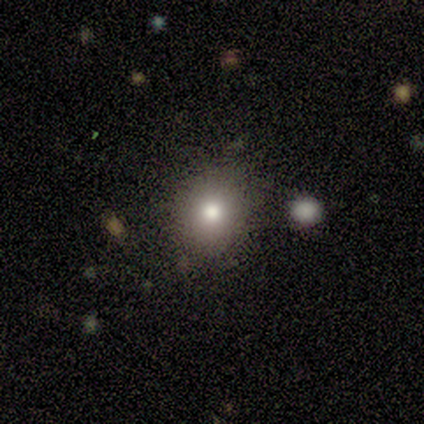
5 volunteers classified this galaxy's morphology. type=smooth (80%); roundness=round (75%); merging=none (100%).